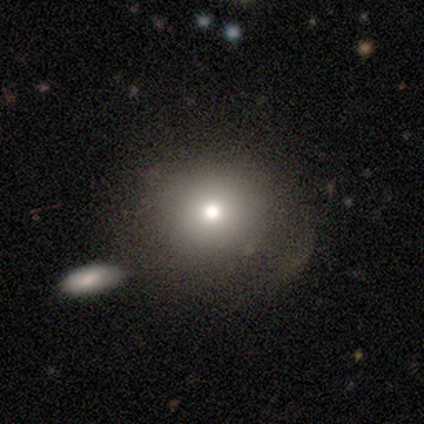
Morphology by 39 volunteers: smooth_or_featured: smooth (p=0.74) [alt: featured or disk p=0.15]
how_rounded: round (p=0.86) [alt: in between p=0.14]
merging: none (p=0.80) [alt: minor disturbance p=0.14]